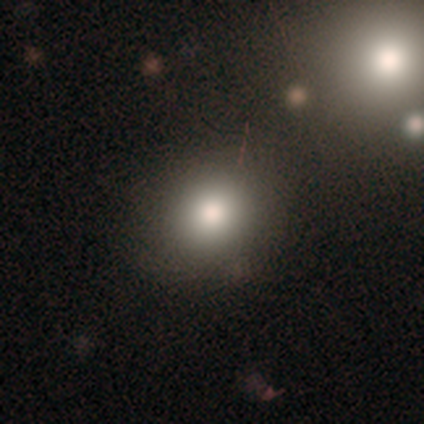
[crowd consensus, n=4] This appears to be a smooth galaxy with no disk features (100%) that is round (100%). Merging: none (75%).